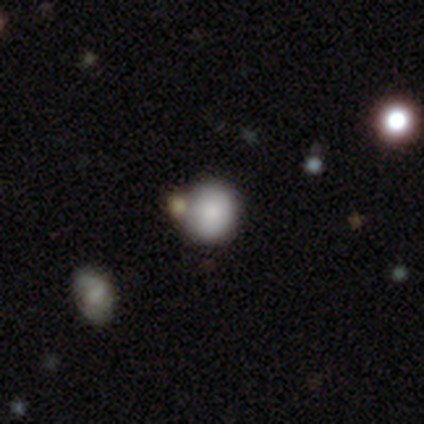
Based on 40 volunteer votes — Smooth or featured? smooth (78%)
How rounded? round (84%)
Merging? none (44%)